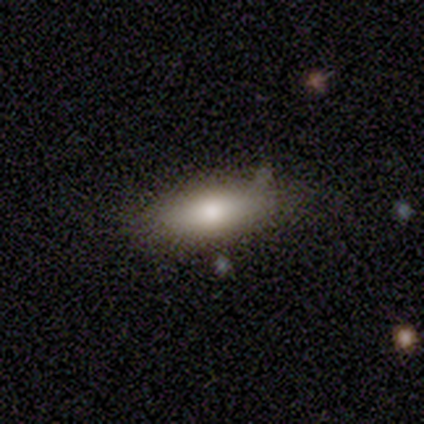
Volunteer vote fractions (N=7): This appears to be a smooth galaxy with no disk features (71%) that is in between round and cigar-shaped (80%). Merging: none (83%).